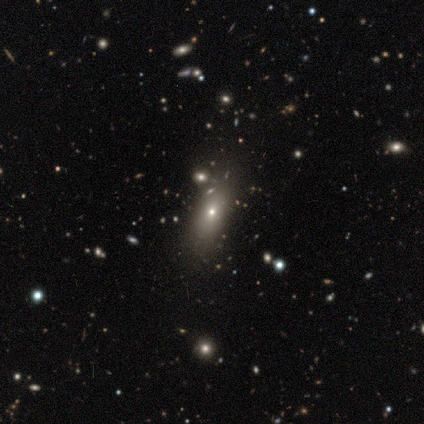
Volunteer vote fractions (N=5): Smooth or featured: smooth — 80% (star or artifact — 20%)
How rounded: round — 50% (tied with in between — 50%)
Merging: none — 100%